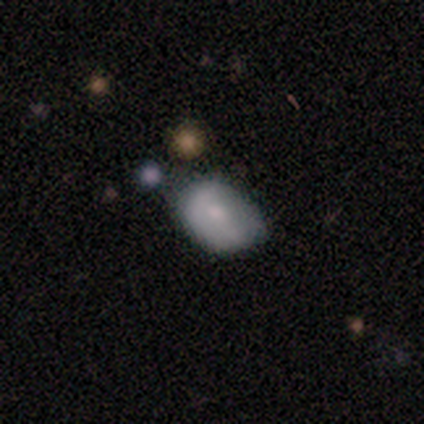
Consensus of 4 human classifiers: A featured or disk galaxy (75%) with a strong bar (33%, tied with weak and no), 2 (50%, tied with can't tell) medium (50%, tied with loose) spiral arms (67%) and a small central bulge (67%). Merging: none (50%, tied with minor disturbance).